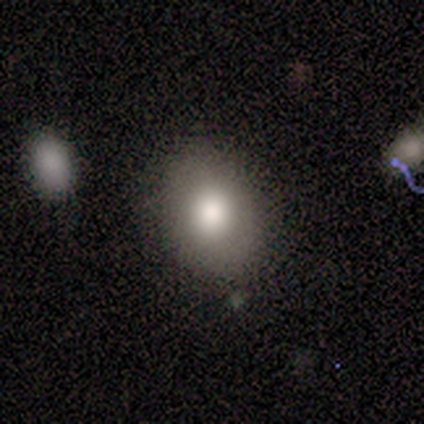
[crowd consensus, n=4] Smooth or featured: smooth — 100%
How rounded: round — 50% (tied with in between — 50%)
Merging: none — 50% (minor disturbance — 25%)